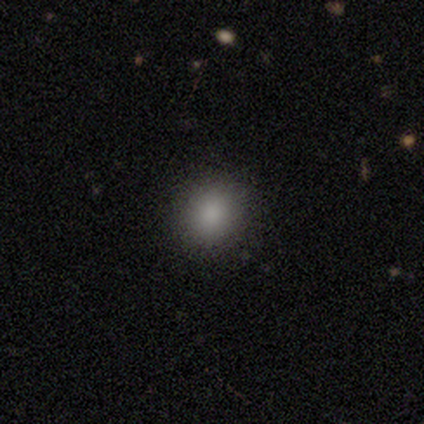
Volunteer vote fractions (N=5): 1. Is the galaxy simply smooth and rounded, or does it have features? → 80% smooth, 20% star or artifact, 0% featured or disk.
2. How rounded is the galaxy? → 75% in between, 25% round, 0% cigar-shaped.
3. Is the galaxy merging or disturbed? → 100% none, 0% minor disturbance, 0% major disturbance, 0% merger.